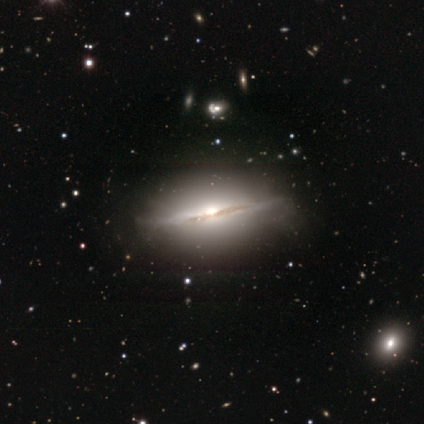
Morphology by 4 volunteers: A featured or disk galaxy (100%) viewed edge-on (100%) with a rounded central bulge (100%). Merging: none (50%).